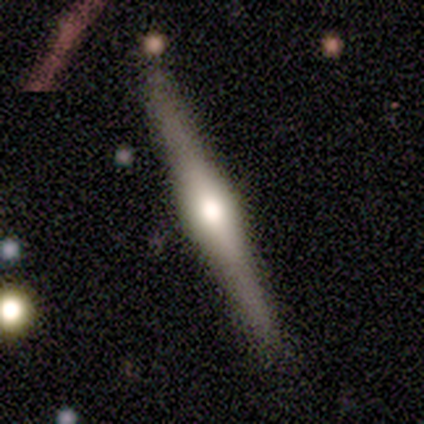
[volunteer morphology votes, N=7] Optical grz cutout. It shows a featured or disk galaxy (86%) viewed edge-on (100%) with a rounded central bulge (83%). Merging: none (100%).